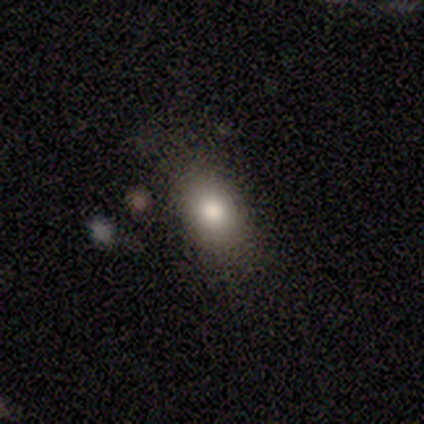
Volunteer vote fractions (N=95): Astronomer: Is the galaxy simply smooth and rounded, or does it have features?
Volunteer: smooth — 81%.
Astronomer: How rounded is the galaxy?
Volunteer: in between — 84%.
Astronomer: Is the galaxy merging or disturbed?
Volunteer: none — 75%.